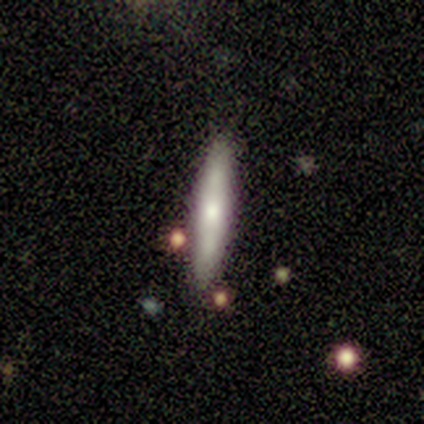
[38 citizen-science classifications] Smooth or featured?
  - featured or disk: 50% *
  - smooth: 37%
  - star or artifact: 13%
Edge-on disk?
  - yes: 89% *
  - no: 11%
Edge-on bulge?
  - rounded: 59% *
  - none: 41%
  - boxy: 0%
Merging?
  - none: 88% *
  - minor disturbance: 6%
  - merger: 6%
  - major disturbance: 0%